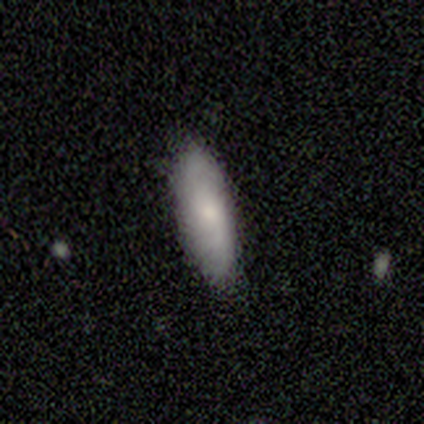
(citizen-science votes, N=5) Overall: smooth (40%, tied with featured or disk). How rounded: in between (100%). Merging: none (100%).